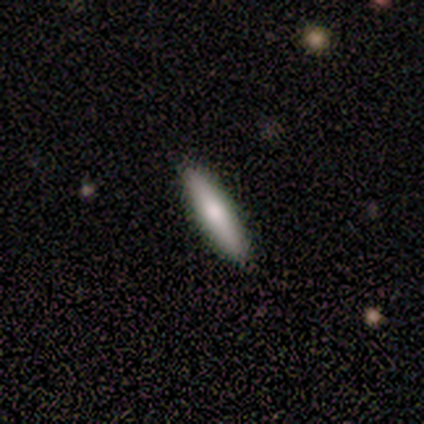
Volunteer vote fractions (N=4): smooth-or-featured: smooth: 75% | star or artifact: 25% | featured or disk: 0%
  how-rounded: cigar-shaped: 100% | round: 0% | in between: 0%
  merging: none: 100% | minor disturbance: 0% | major disturbance: 0% | merger: 0%